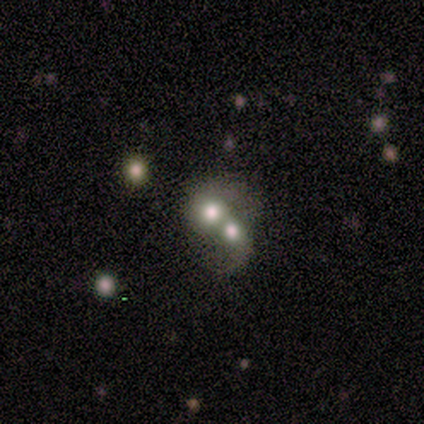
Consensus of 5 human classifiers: Smooth or featured: smooth — 60% (featured or disk — 40%)
How rounded: in between — 100%
Merging: merger — 80% (major disturbance — 20%)